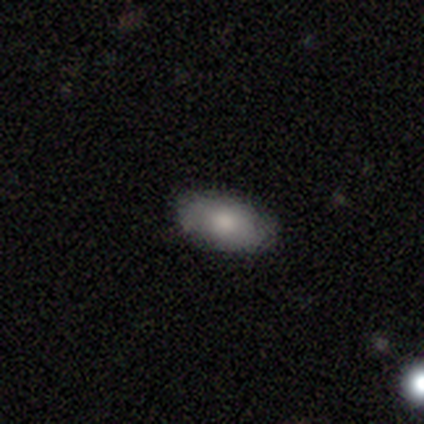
Smooth or featured? smooth (80%)
How rounded? in between (100%)
Merging? none (80%)